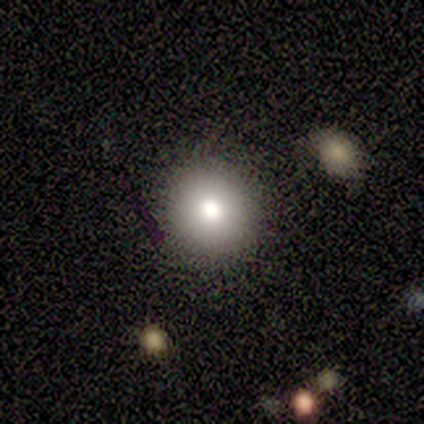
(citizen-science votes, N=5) A smooth galaxy with no disk features (80%) that is round (100%). Merging: none (100%).